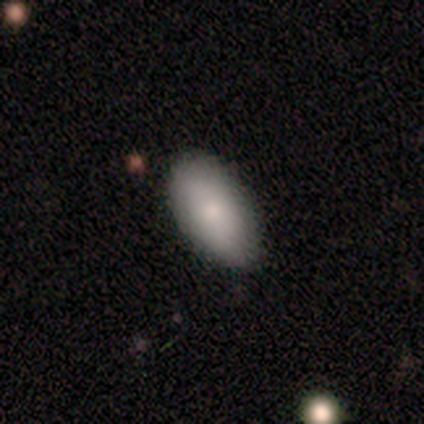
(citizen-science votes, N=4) This appears to be a smooth galaxy with no disk features (100%) that is in between round and cigar-shaped (100%). Merging: none (75%).